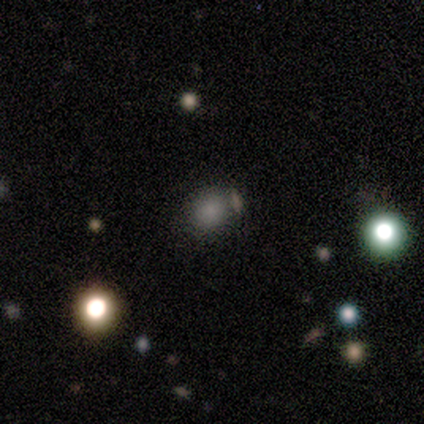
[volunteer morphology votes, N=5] Q: Smooth or featured?
A: smooth (100%)
Q: How rounded?
A: round (100%)
Q: Merging?
A: none (100%)